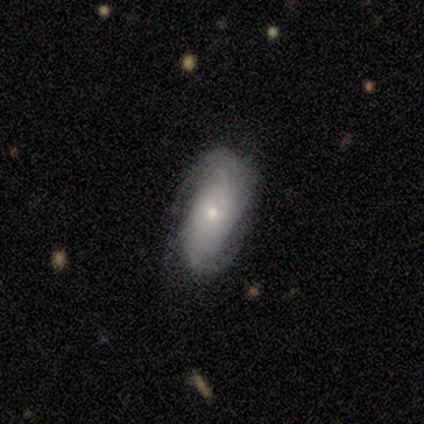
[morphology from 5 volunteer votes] A featured or disk galaxy (80%) with no bar (100%), 2 (100%) tight (67%) spiral arms (75%) and a small central bulge (75%). Merging: none (80%).